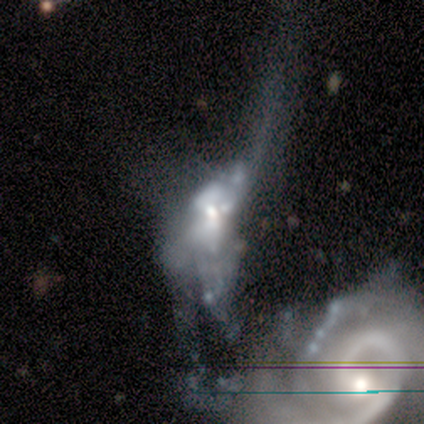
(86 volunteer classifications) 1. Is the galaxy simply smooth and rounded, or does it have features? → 81% featured or disk, 10% star or artifact, 8% smooth.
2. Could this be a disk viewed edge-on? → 97% no, 3% yes.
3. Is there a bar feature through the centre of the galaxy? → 81% no, 15% weak, 4% strong.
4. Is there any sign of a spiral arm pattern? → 75% no, 25% yes.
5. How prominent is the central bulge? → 57% moderate, 29% small, 6% large, 6% none, 1% dominant.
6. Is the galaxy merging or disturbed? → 56% merger, 34% major disturbance, 8% none, 3% minor disturbance.